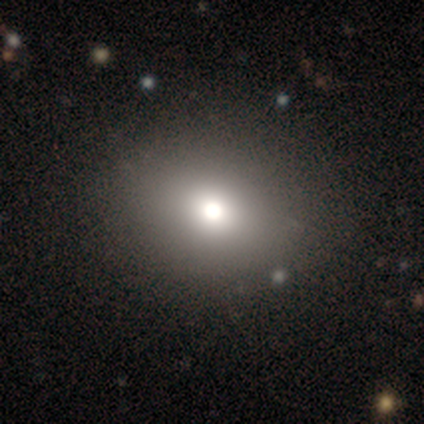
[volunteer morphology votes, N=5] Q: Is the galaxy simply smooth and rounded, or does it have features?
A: smooth — 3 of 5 (60%).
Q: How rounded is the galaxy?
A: in between — 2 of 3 (67%).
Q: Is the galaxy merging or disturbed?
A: none — 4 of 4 (100%).